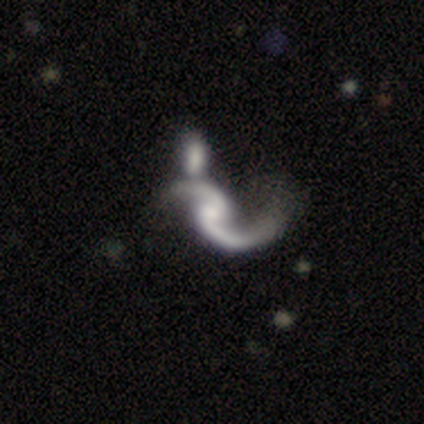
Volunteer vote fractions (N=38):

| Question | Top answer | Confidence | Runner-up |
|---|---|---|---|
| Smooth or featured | featured or disk | 87% | smooth (11%) |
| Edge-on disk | no | 100% | — |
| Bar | no | 64% | weak (21%) |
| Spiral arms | yes | 97% | no (3%) |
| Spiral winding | loose | 84% | medium (16%) |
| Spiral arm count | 2 | 94% | 1 (6%) |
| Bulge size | none | 42% | moderate (24%) |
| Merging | merger | 32% | none (11%) |